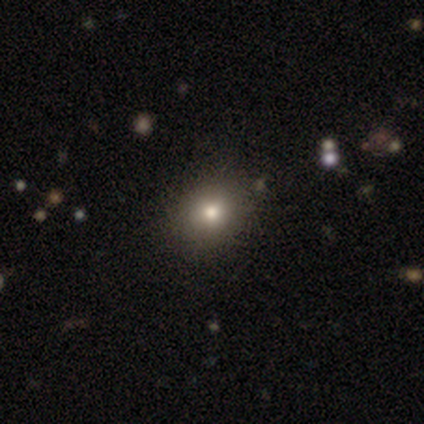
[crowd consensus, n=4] Q: Smooth or featured?
A: smooth (75%); runner-up: featured or disk (25%)
Q: How rounded?
A: round (67%); runner-up: in between (33%)
Q: Merging?
A: none (100%)